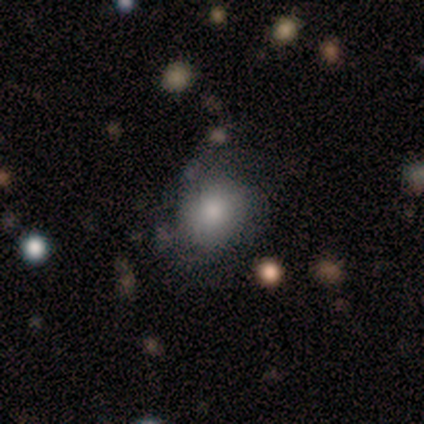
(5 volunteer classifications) A smooth galaxy with no disk features (80%) that is in between round and cigar-shaped (100%). Merging: none (40%, tied with minor disturbance).